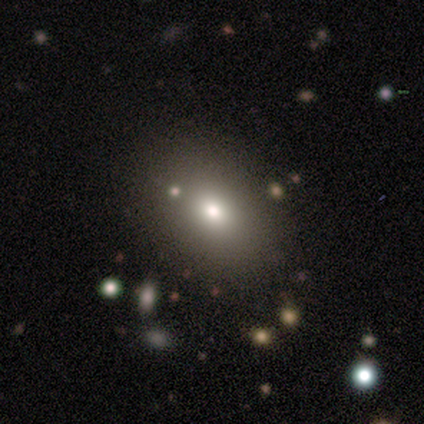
Smooth or featured? smooth (67%)
How rounded? in between (78%)
Merging? none (82%)